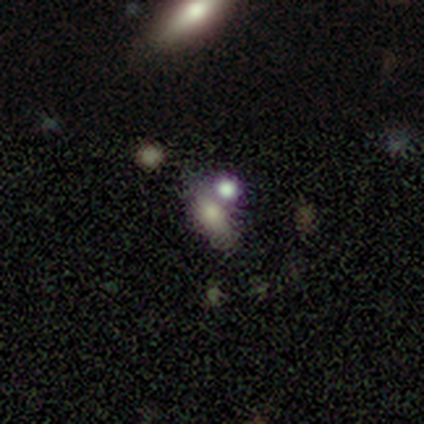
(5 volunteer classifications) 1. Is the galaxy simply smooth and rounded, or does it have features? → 40% featured or disk (tied), 40% star or artifact (tied), 20% smooth.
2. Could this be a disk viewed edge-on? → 100% no, 0% yes.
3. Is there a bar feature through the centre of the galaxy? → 100% no, 0% strong, 0% weak.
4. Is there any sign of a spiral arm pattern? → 100% no, 0% yes.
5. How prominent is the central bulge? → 100% none, 0% dominant, 0% large, 0% moderate, 0% small.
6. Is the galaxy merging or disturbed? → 67% none, 33% merger, 0% minor disturbance, 0% major disturbance.